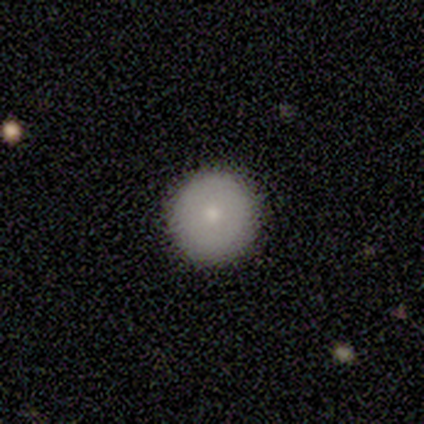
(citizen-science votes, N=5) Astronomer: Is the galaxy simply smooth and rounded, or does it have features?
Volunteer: smooth — 80%.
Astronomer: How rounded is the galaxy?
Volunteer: round — 100%.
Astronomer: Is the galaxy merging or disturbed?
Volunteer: none — 100%.